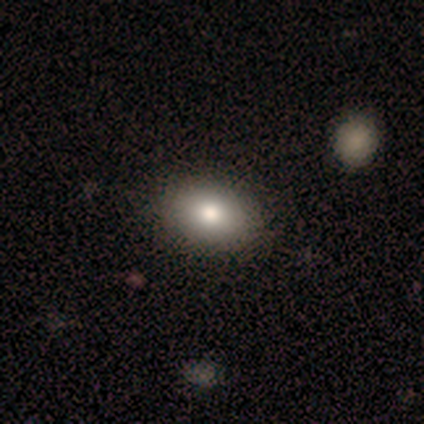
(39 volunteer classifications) Smooth or featured? 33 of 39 (85%) said smooth. How rounded? 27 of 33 (82%) said in between. Merging? 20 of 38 (53%) said none.